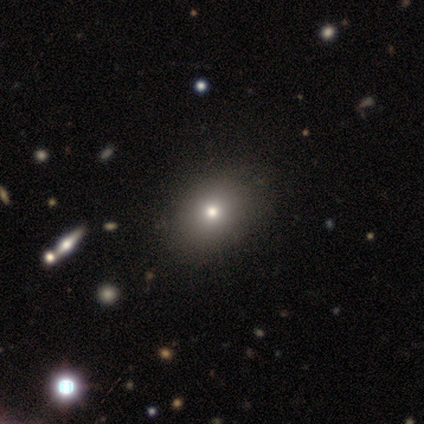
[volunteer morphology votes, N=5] smooth 40% (tied), star or artifact 40% (tied), featured or disk 20%. Down the decision tree: how rounded — round (50%, tied with in between); merging — none (67%).